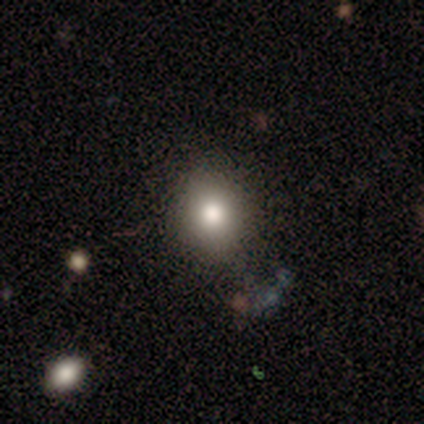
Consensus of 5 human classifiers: Smooth or featured: smooth — 100%
How rounded: round — 60% (in between — 40%)
Merging: none — 100%